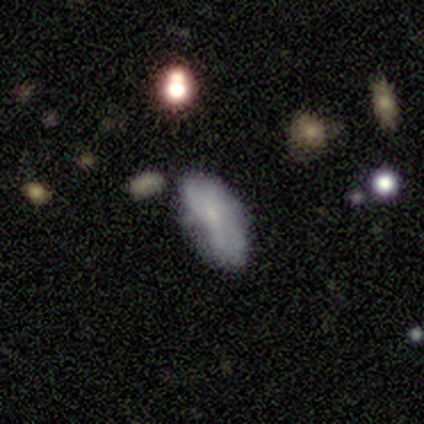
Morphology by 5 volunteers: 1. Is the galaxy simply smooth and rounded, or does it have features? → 100% smooth, 0% featured or disk, 0% star or artifact.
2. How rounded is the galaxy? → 100% in between, 0% round, 0% cigar-shaped.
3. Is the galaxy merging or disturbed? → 60% none, 40% minor disturbance, 0% major disturbance, 0% merger.